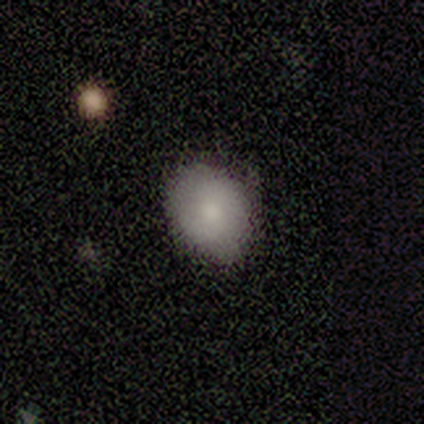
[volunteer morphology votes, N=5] type=smooth (60%); roundness=round (67%); merging=none (50%, tied with minor disturbance).